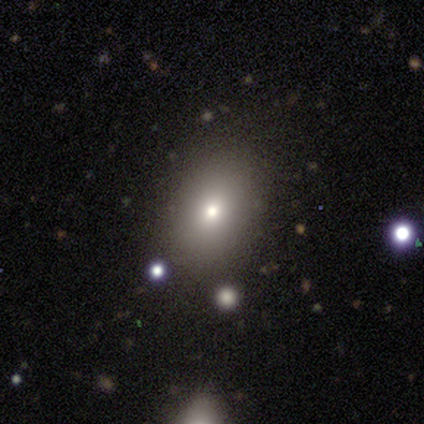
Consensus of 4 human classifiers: Smooth or featured?
  - smooth: 75% *
  - star or artifact: 25%
  - featured or disk: 0%
How rounded?
  - in between: 67% *
  - round: 33%
  - cigar-shaped: 0%
Merging?
  - none: 100% *
  - minor disturbance: 0%
  - major disturbance: 0%
  - merger: 0%